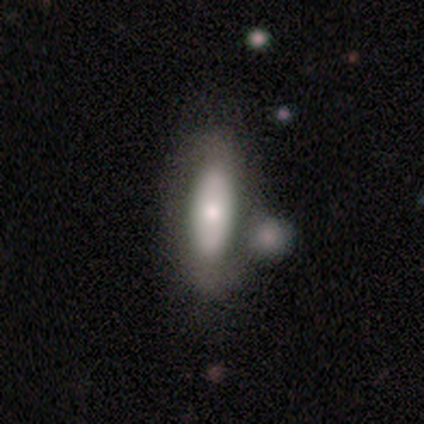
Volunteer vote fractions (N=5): smooth_or_featured: smooth (p=0.60) [alt: featured or disk p=0.40]
how_rounded: in between (p=0.67) [alt: cigar-shaped p=0.33]
merging: merger (p=0.40) [alt: none p=0.20]